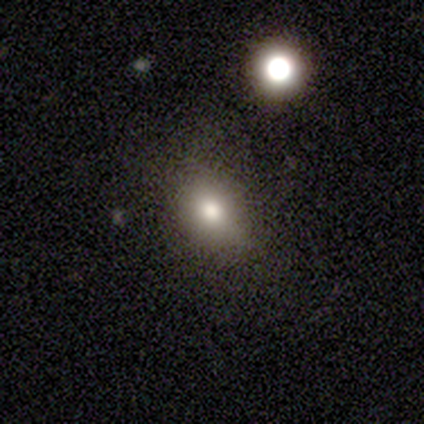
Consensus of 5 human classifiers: smooth_or_featured: smooth (p=0.80) [alt: featured or disk p=0.20]
how_rounded: in between (p=1.00)
merging: none (p=0.80) [alt: minor disturbance p=0.20]